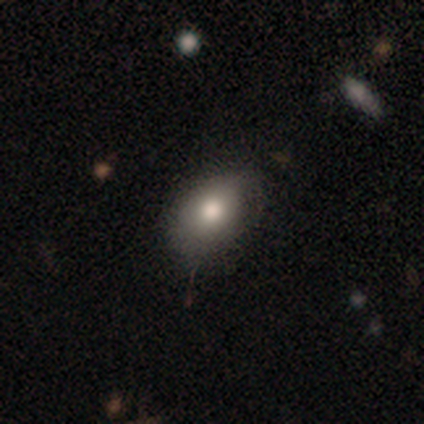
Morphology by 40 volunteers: smooth 78%, featured or disk 12%, star or artifact 10%. Down the decision tree: how rounded — in between (81%); merging — none (61%).